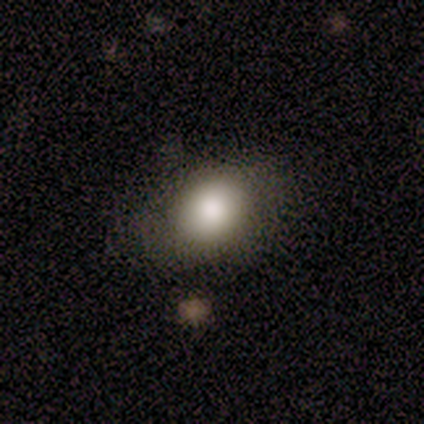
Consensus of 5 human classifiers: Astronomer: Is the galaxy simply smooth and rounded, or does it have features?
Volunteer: smooth — 100%.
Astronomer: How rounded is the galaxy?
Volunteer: in between — 60% (runner-up: round, 40%).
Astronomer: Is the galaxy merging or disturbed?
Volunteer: none — 80%.